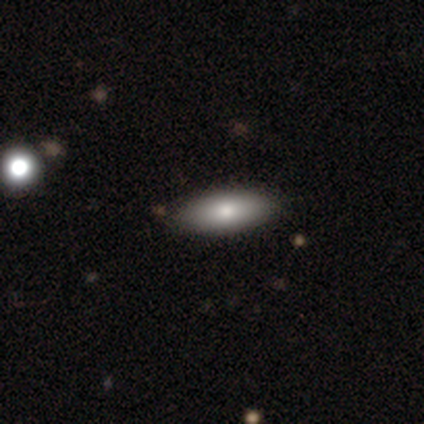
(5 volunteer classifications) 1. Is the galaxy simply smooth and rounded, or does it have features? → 60% smooth, 20% featured or disk, 20% star or artifact.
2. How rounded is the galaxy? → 67% in between, 33% cigar-shaped, 0% round.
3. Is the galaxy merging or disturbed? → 50% none, 25% minor disturbance, 25% merger, 0% major disturbance.